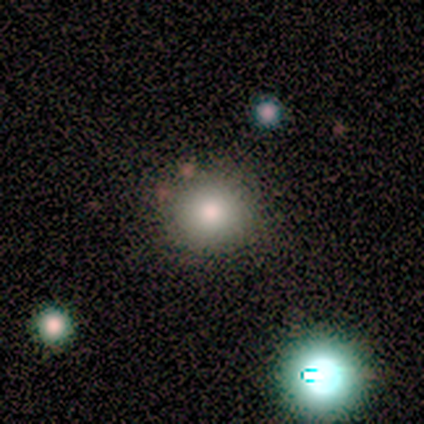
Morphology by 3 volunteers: Smooth or featured? 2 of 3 (67%) said smooth. How rounded? 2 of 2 (100%) said round. Merging? 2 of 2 (100%) said none.